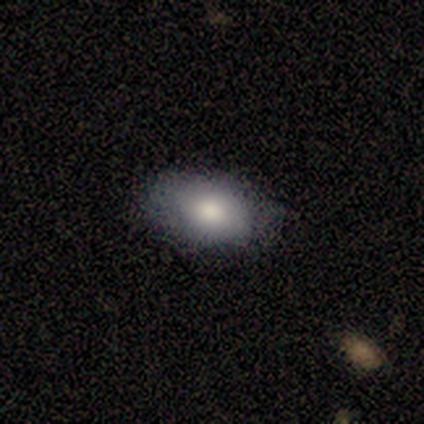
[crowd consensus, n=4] A smooth galaxy with no disk features (75%) that is in between round and cigar-shaped (100%).

Vote fractions:
- Smooth or featured? smooth: 75% / featured or disk: 25% / star or artifact: 0%
- How rounded? in between: 100% / round: 0% / cigar-shaped: 0%
- Merging? none: 75% / minor disturbance: 25% / major disturbance: 0% / merger: 0%